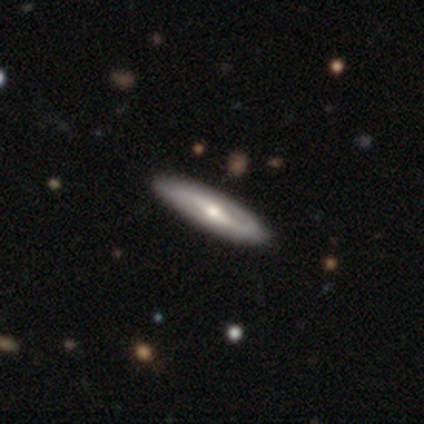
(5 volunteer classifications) This appears to be a featured or disk galaxy (60%) viewed edge-on (100%) with a rounded central bulge (100%). Merging: none (80%).